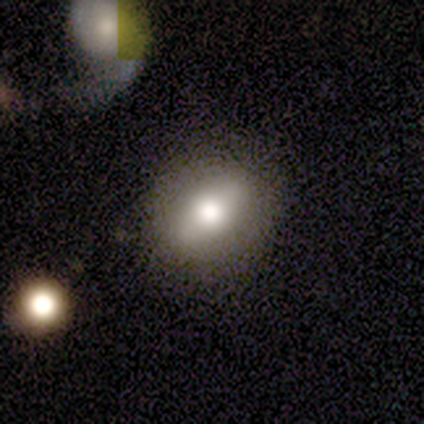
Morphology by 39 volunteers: smooth-or-featured: smooth: 72% | featured or disk: 26% | star or artifact: 3%
  how-rounded: in between: 57% | round: 25% | cigar-shaped: 18%
  merging: none: 55% | minor disturbance: 5% | merger: 5% | major disturbance: 0%